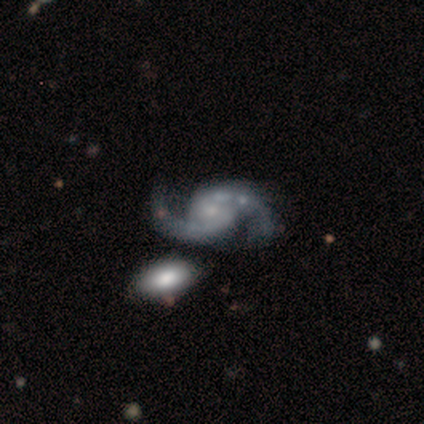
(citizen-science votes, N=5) featured or disk 100%, smooth 0%, star or artifact 0%. Down the decision tree: edge-on disk — no (100%); bar — no (80%); spiral arms — yes (100%); spiral arm count — 2 (100%); spiral winding — loose (60%); bulge size — small (40%, tied with none); merging — none (60%).